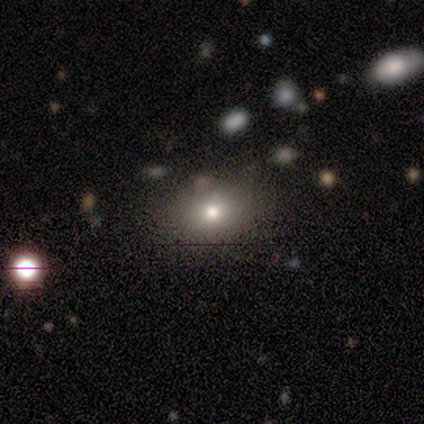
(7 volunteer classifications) Smooth or featured? smooth (57%)
How rounded? in between (75%)
Merging? none (100%)